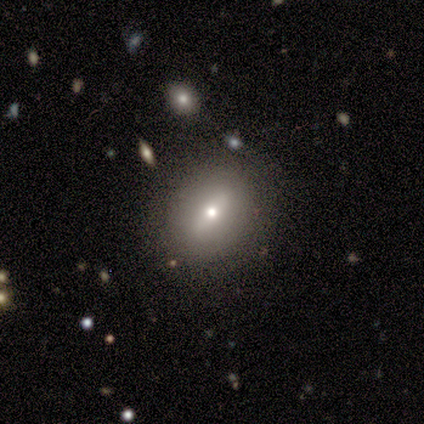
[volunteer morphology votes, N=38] Smooth or featured: smooth — 71% (featured or disk — 21%)
How rounded: round — 52% (in between — 48%)
Merging: none — 83% (minor disturbance — 14%)